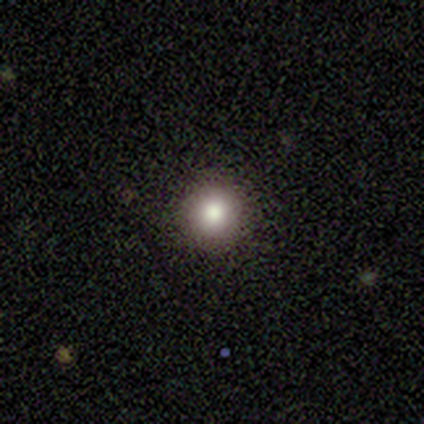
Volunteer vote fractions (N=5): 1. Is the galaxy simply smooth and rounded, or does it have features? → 80% smooth, 20% star or artifact, 0% featured or disk.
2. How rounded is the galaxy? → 100% round, 0% in between, 0% cigar-shaped.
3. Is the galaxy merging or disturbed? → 75% none, 25% minor disturbance, 0% major disturbance, 0% merger.